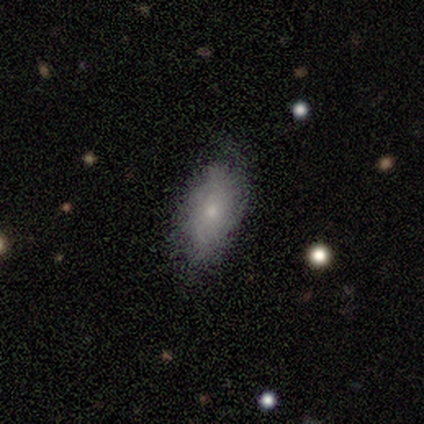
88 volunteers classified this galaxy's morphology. smooth-or-featured: smooth: 60% | featured or disk: 32% | star or artifact: 8%
  how-rounded: in between: 89% | cigar-shaped: 8% | round: 4%
  merging: none: 67% | minor disturbance: 26% | major disturbance: 6% | merger: 1%